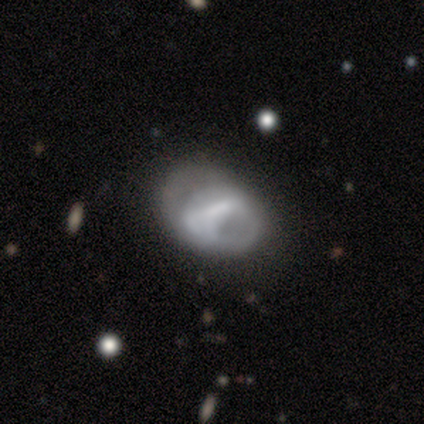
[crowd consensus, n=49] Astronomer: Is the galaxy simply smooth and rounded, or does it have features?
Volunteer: featured or disk — 55% (runner-up: smooth, 39%).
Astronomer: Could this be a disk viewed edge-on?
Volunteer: no — 96%.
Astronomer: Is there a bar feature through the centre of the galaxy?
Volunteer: weak — 35%, tied with no at 35%.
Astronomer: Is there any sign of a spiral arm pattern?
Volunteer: no — 65%.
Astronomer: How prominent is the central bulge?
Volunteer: none — 50%.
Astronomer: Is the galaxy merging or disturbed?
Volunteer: none — 57%.